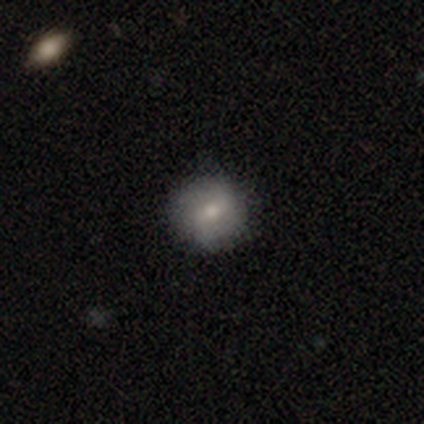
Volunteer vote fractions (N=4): Overall: smooth (50%, tied with featured or disk). How rounded: round (100%). Merging: none (100%).